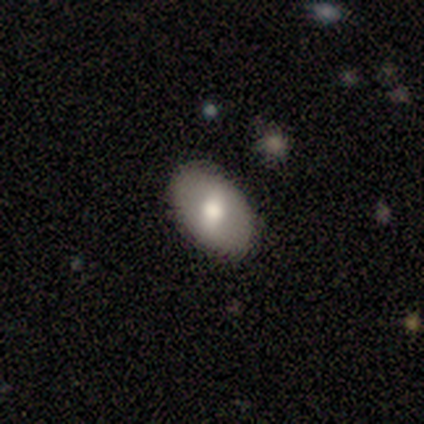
Q: Smooth or featured?
A: smooth (57%); runner-up: featured or disk (40%)
Q: How rounded?
A: in between (87%); runner-up: round (13%)
Q: Merging?
A: none (85%); runner-up: minor disturbance (13%)